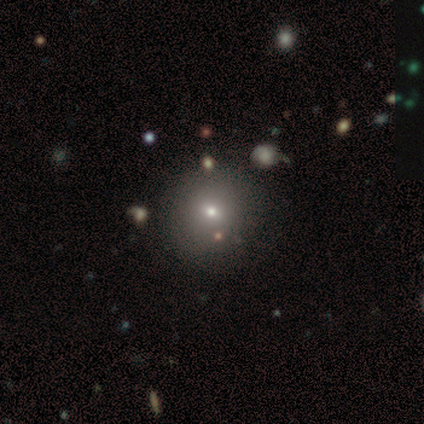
Overall: smooth (100%). How rounded: round (100%). Merging: none (60%; major disturbance 20%).